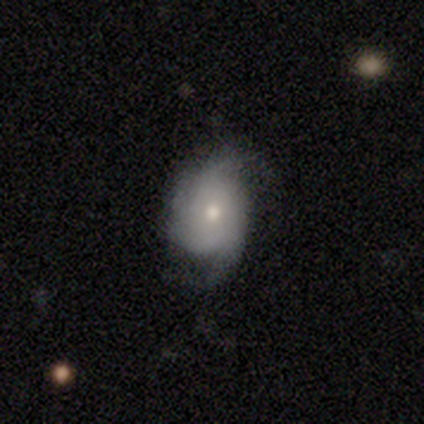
Smooth or featured? 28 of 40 (70%) said featured or disk. Edge-on disk? 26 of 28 (93%) said no. Bar? 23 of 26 (88%) said no. Spiral arms? 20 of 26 (77%) said yes. Spiral winding? 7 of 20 (35%, tied with loose) said medium. Spiral arm count? 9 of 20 (45%) said 2. Bulge size? 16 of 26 (62%) said moderate. Merging? 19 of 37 (51%) said none.